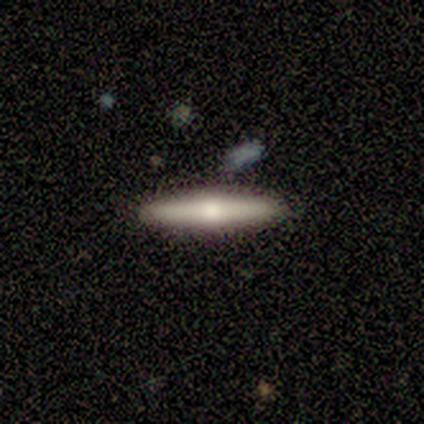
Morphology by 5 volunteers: Q: Smooth or featured?
A: featured or disk (60%); runner-up: smooth (40%)
Q: Edge-on disk?
A: yes (100%)
Q: Edge-on bulge?
A: rounded (100%)
Q: Merging?
A: none (100%)